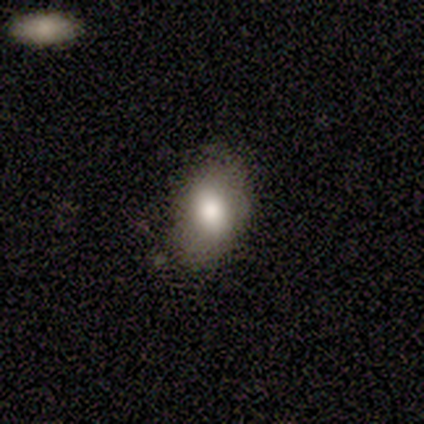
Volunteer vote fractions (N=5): Morphology: type=smooth (100%); roundness=in between (80%); merging=none (80%).